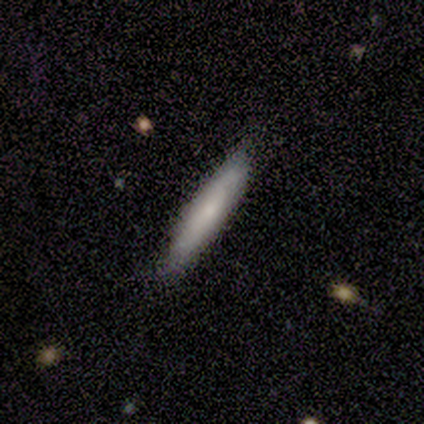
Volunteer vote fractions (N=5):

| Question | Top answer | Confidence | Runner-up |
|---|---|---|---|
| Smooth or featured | smooth | 100% | — |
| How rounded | cigar-shaped | 100% | — |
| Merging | none | 80% | minor disturbance (20%) |